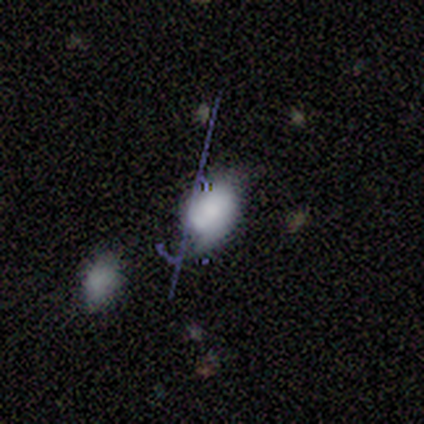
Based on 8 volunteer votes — Q: Smooth or featured?
A: smooth (62%); runner-up: featured or disk (25%)
Q: How rounded?
A: in between (100%)
Q: Merging?
A: major disturbance (71%); runner-up: none (29%)